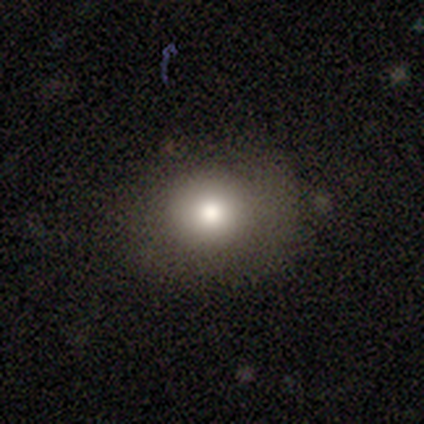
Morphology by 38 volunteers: Smooth or featured?
  - smooth: 74% *
  - star or artifact: 21%
  - featured or disk: 5%
How rounded?
  - round: 86% *
  - in between: 14%
  - cigar-shaped: 0%
Merging?
  - none: 80% *
  - minor disturbance: 17%
  - major disturbance: 3%
  - merger: 0%